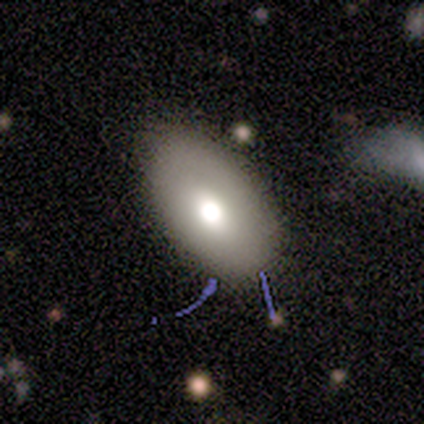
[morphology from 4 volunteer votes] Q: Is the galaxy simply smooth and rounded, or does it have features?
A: smooth — 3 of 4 (75%).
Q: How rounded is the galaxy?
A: in between — 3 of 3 (100%).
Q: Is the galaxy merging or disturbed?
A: none — 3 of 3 (100%).